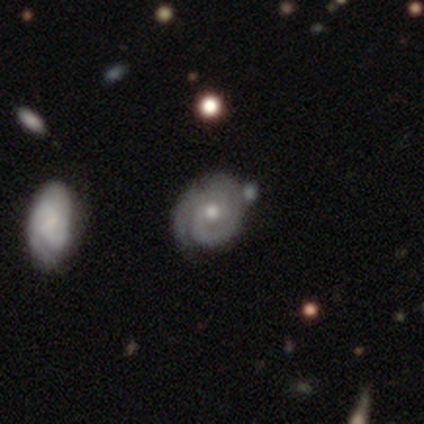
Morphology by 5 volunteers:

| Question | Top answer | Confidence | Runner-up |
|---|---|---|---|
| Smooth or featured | featured or disk | 100% | — |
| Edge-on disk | no | 100% | — |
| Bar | no | 80% | weak (20%) |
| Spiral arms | yes | 100% | — |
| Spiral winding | tight | 80% | medium (20%) |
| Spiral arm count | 2 | 60% | 1 (20%) |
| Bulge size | moderate | 60% | small (40%) |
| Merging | none | 80% | minor disturbance (20%) |